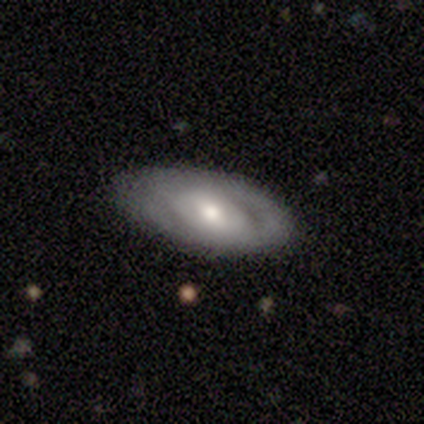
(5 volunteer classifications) This appears to be a smooth galaxy with no disk features (60%) that is in between round and cigar-shaped (100%). Merging: none (80%).